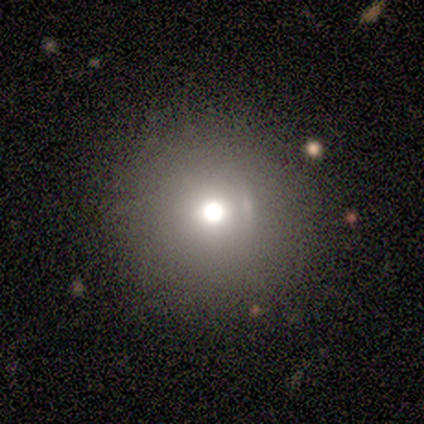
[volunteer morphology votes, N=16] smooth 75%, star or artifact 19%, featured or disk 6%. Down the decision tree: how rounded — round (100%); merging — none (92%).